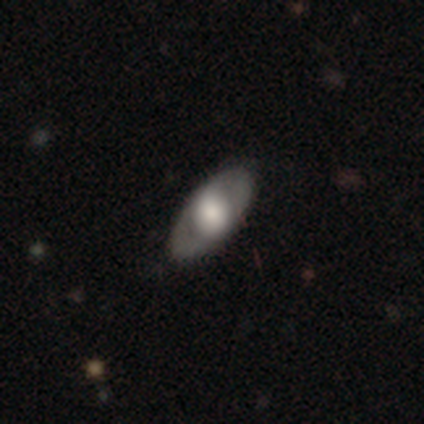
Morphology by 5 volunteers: Q: Smooth or featured?
A: featured or disk (80%); runner-up: smooth (20%)
Q: Edge-on disk?
A: yes (75%); runner-up: no (25%)
Q: Edge-on bulge?
A: rounded (100%)
Q: Merging?
A: none (100%)